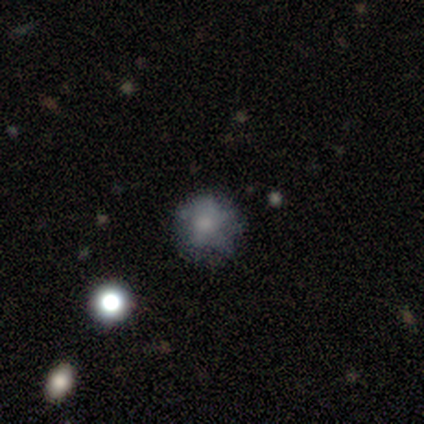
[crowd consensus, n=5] smooth-or-featured: smooth: 60% | featured or disk: 40% | star or artifact: 0%
  how-rounded: round: 100% | in between: 0% | cigar-shaped: 0%
  merging: none: 60% | minor disturbance: 20% | merger: 20% | major disturbance: 0%